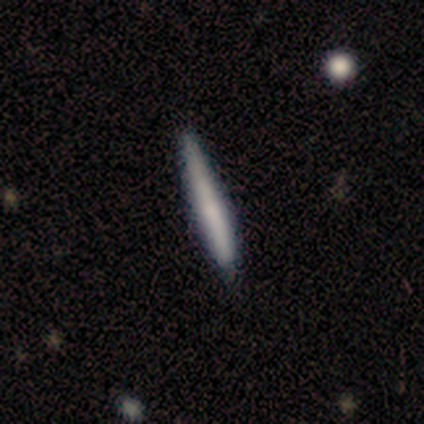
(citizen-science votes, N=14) A smooth galaxy with no disk features (86%) that is cigar-shaped (92%).

Vote fractions:
- Smooth or featured? smooth: 86% / featured or disk: 14% / star or artifact: 0%
- How rounded? cigar-shaped: 92% / in between: 8% / round: 0%
- Merging? none: 100% / minor disturbance: 0% / major disturbance: 0% / merger: 0%